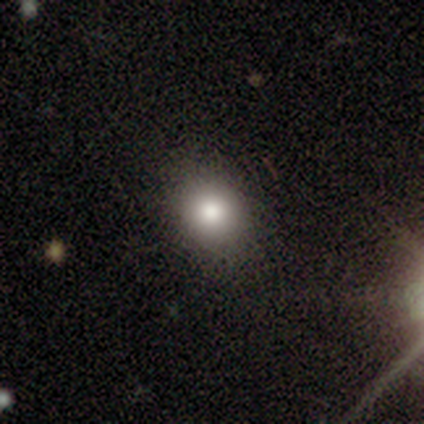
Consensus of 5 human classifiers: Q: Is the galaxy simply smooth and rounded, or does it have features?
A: smooth — 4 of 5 (80%).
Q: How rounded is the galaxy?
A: round — 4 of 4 (100%).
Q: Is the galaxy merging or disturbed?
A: none — 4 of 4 (100%).